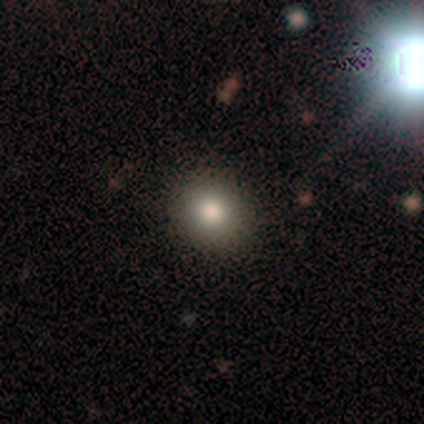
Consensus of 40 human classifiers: smooth-or-featured: smooth: 72% | star or artifact: 20% | featured or disk: 8%
  how-rounded: round: 76% | in between: 21% | cigar-shaped: 3%
  merging: none: 94% | minor disturbance: 3% | major disturbance: 3% | merger: 0%